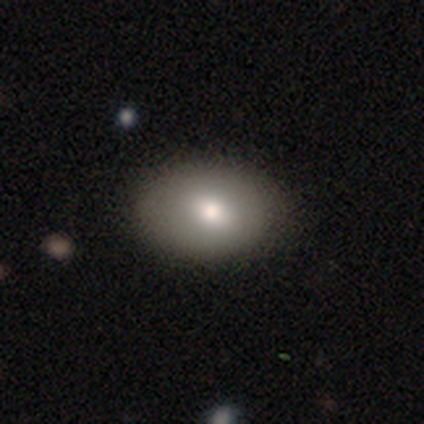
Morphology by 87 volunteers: Smooth or featured: smooth — 86% (featured or disk — 7%)
How rounded: in between — 83% (round — 16%)
Merging: none — 93% (minor disturbance — 5%)